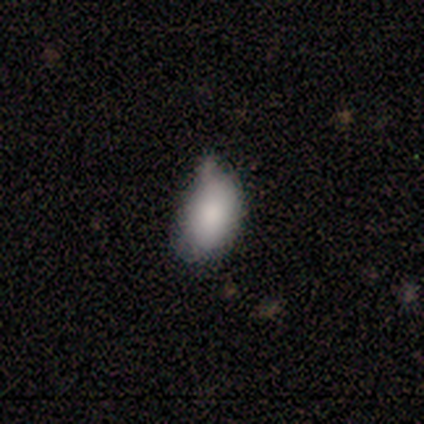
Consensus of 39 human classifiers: A smooth galaxy with no disk features (92%) that is in between round and cigar-shaped (97%). Merging: minor disturbance (53%).